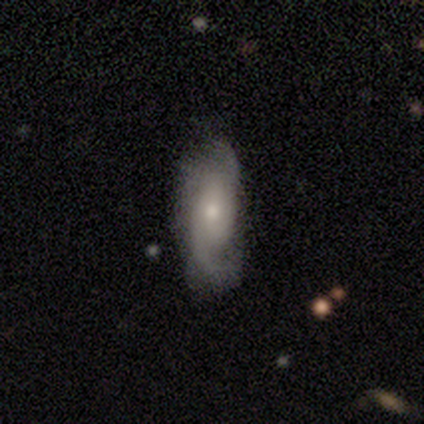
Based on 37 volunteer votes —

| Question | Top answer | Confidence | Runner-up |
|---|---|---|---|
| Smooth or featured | featured or disk | 78% | smooth (19%) |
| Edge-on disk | no | 97% | yes (3%) |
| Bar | no | 68% | weak (32%) |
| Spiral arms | yes | 100% | — |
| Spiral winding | medium | 39% | loose (32%) |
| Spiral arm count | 2 | 75% | 1 (14%) |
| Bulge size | moderate | 57% | small (36%) |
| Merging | none | 72% | minor disturbance (25%) |